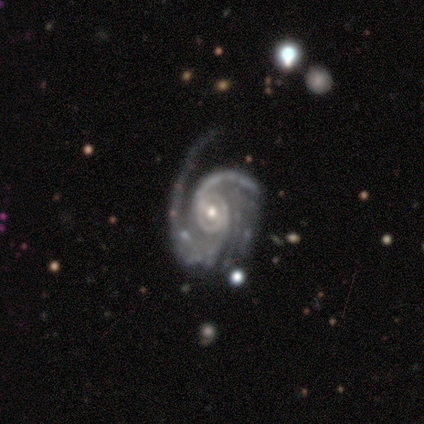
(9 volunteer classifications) A featured or disk galaxy (100%) with no bar (44%), 2 (33%) tight (56%) spiral arms (100%) and a moderate central bulge (56%). Merging: none (44%).